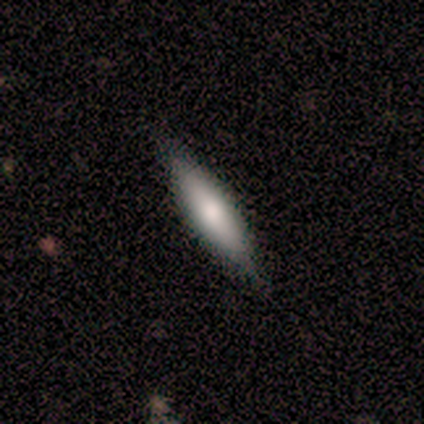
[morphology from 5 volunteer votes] type=smooth (80%); roundness=cigar-shaped (75%); merging=none (100%).